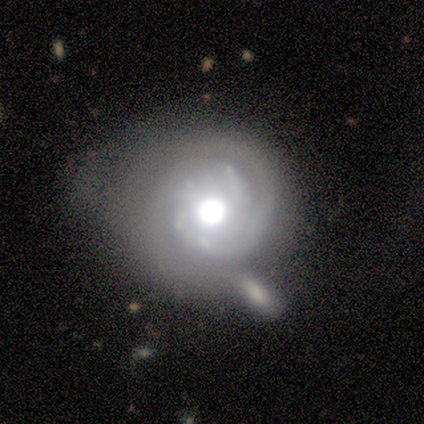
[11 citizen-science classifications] Q: Smooth or featured?
A: featured or disk (82%); runner-up: smooth (18%)
Q: Edge-on disk?
A: no (100%)
Q: Bar?
A: no (78%); runner-up: strong (11%)
Q: Spiral arms?
A: yes (89%); runner-up: no (11%)
Q: Spiral winding?
A: tight (75%); runner-up: medium (25%)
Q: Spiral arm count?
A: 2 (50%); runner-up: can't tell (25%)
Q: Bulge size?
A: moderate (44%); runner-up: large (33%)
Q: Merging?
A: minor disturbance (36%); runner-up: merger (27%)